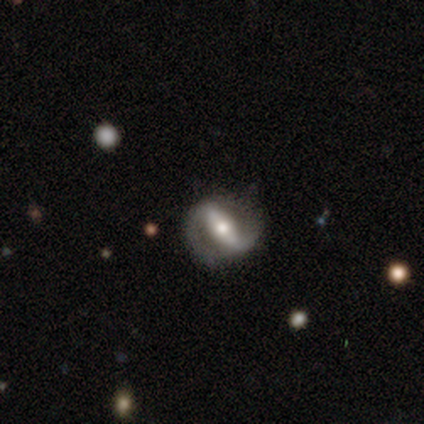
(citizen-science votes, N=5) Smooth or featured: featured or disk — 100%
Edge-on disk: no — 80% (yes — 20%)
Bar: strong — 75% (weak — 25%)
Spiral arms: yes — 100%
Spiral winding: medium — 75% (tight — 25%)
Spiral arm count: 2 — 100%
Bulge size: moderate — 100%
Merging: none — 100%